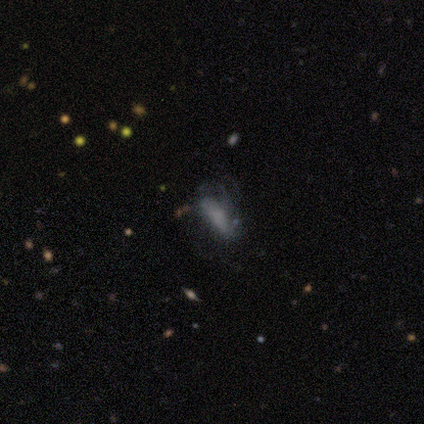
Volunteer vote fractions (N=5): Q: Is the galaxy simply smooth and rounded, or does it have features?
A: smooth — 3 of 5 (60%).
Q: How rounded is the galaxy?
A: in between — 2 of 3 (67%).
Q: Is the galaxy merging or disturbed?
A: none — 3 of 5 (60%).